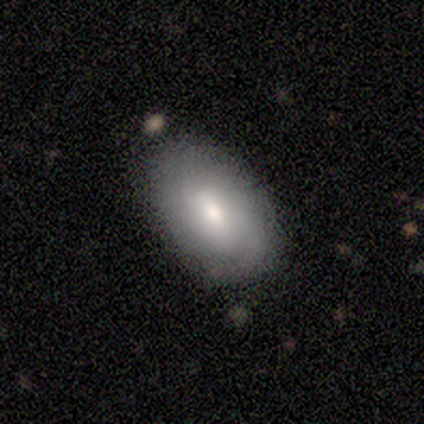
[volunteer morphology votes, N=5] Overall: smooth (60%; featured or disk 40%). How rounded: in between (67%; cigar-shaped 33%). Merging: none (60%; minor disturbance 20%).